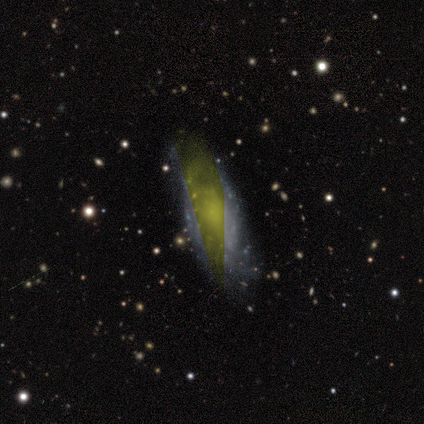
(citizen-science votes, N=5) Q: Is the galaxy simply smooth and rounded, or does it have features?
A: featured or disk — 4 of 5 (80%).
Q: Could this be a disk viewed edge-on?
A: no — 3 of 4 (75%).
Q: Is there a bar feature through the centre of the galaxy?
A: no — 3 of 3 (100%).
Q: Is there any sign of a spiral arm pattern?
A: yes — 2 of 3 (67%).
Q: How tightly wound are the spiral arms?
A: tight — 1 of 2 (50%, tied with medium).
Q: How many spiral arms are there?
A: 3 — 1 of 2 (50%, tied with can't tell).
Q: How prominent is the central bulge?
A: moderate — 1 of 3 (33%, tied with small and none).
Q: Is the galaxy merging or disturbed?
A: none — 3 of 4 (75%).